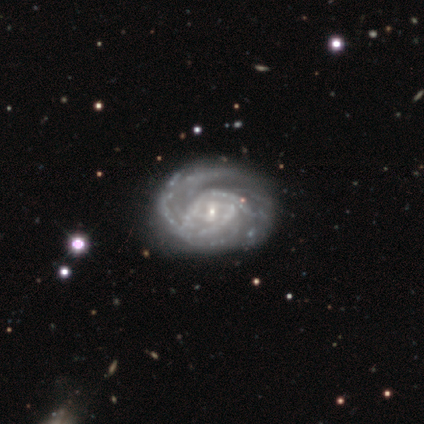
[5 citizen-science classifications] Volunteers were most divided on "spiral arm count" (5-way tie): 2: 20%, 3: 20%, 4: 20%, more than 4: 20%, can't tell: 20%, 1: 0%. More confident: smooth or featured — featured or disk (100%); edge-on disk — no (100%); spiral arms — yes (100%); bulge size — small (100%); spiral winding — tight (80%); merging — none (80%); bar — weak (60%).